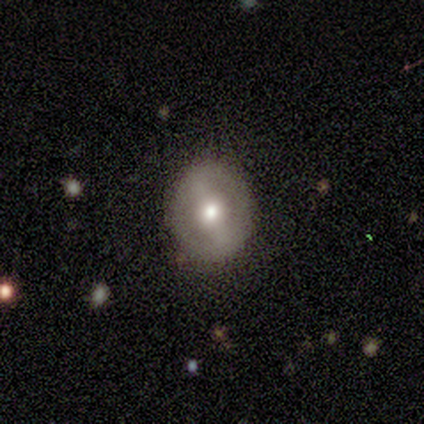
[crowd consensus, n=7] smooth_or_featured: featured or disk (p=0.57) [alt: smooth p=0.29]
disk_edge_on: no (p=1.00)
bar: strong (p=0.50) [tied with: weak p=0.50]
has_spiral_arms: yes (p=0.50) [tied with: no p=0.50]
spiral_winding: tight (p=0.50) [tied with: medium p=0.50]
spiral_arm_count: 2 (p=1.00)
bulge_size: moderate (p=0.75) [alt: small p=0.25]
merging: none (p=1.00)